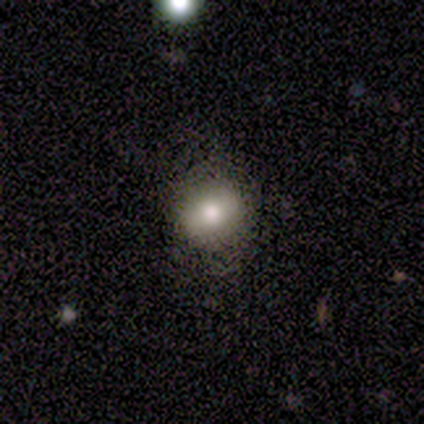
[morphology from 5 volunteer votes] Q: Smooth or featured?
A: smooth (60%); runner-up: featured or disk (20%)
Q: How rounded?
A: round (100%)
Q: Merging?
A: none (75%); runner-up: merger (25%)